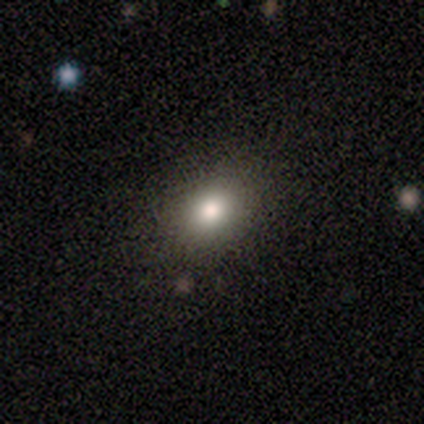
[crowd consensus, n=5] Smooth or featured?
  - smooth: 100% *
  - featured or disk: 0%
  - star or artifact: 0%
How rounded?
  - in between: 60% *
  - round: 40%
  - cigar-shaped: 0%
Merging?
  - none: 80% *
  - merger: 20%
  - minor disturbance: 0%
  - major disturbance: 0%